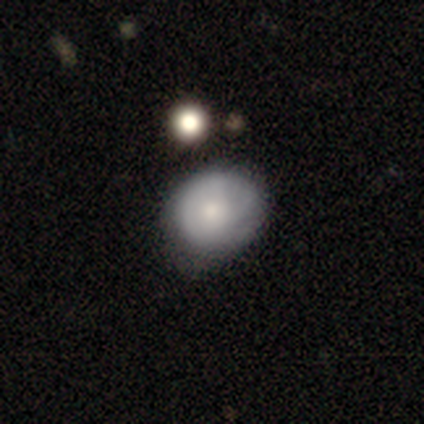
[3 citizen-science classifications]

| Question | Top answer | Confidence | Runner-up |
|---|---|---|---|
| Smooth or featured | smooth | 67% | featured or disk (33%) |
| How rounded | round | 50% | tied: in between (50%) |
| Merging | none | 67% | minor disturbance (33%) |